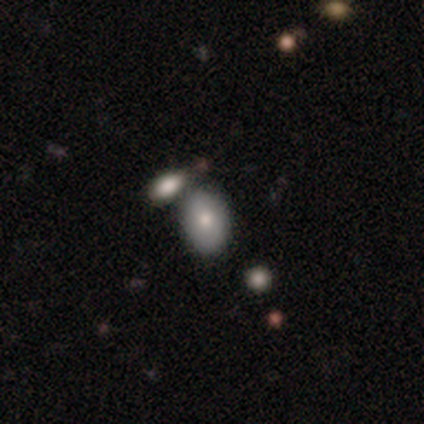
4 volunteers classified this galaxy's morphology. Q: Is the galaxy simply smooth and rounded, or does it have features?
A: smooth — 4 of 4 (100%).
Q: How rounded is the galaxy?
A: in between — 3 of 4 (75%).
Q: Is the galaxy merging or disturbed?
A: merger — 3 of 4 (75%).